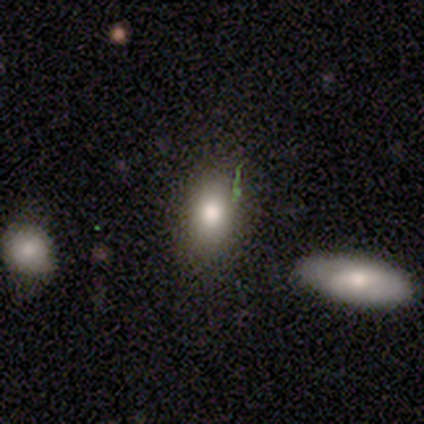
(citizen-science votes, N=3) featured or disk 67%, smooth 33%, star or artifact 0%. Down the decision tree: edge-on disk — no (100%); bar — no (100%); spiral arms — no (100%); bulge size — large (100%); merging — none (100%).